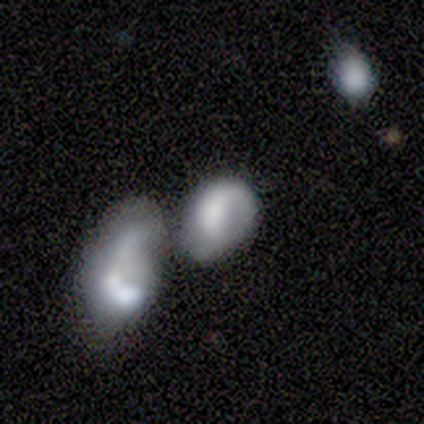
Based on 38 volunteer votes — Smooth or featured: smooth — 61% (featured or disk — 29%)
How rounded: in between — 78% (round — 22%)
Merging: merger — 56% (minor disturbance — 21%)